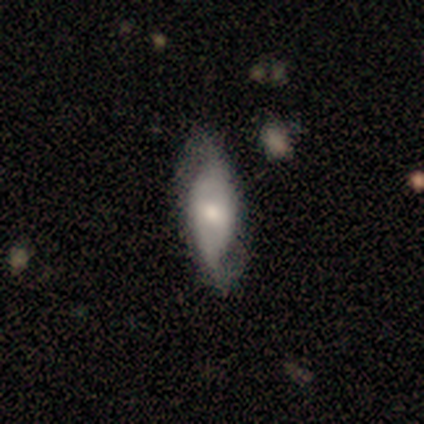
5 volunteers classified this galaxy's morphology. Smooth or featured?
  - featured or disk: 80% *
  - smooth: 20%
  - star or artifact: 0%
Edge-on disk?
  - no: 75% *
  - yes: 25%
Bar?
  - weak: 67% *
  - no: 33%
  - strong: 0%
Spiral arms?
  - yes: 100% *
  - no: 0%
Spiral winding?
  - loose: 67% *
  - tight: 33%
  - medium: 0%
Spiral arm count?
  - 2: 100% *
  - 1: 0%
  - 3: 0%
  - 4: 0%
  - more than 4: 0%
  - can't tell: 0%
Bulge size?
  - small: 67% *
  - moderate: 33%
  - dominant: 0%
  - large: 0%
  - none: 0%
Merging?
  - none: 100% *
  - minor disturbance: 0%
  - major disturbance: 0%
  - merger: 0%